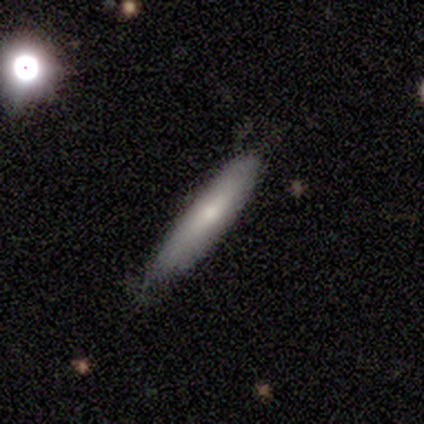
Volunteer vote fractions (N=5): smooth_or_featured: smooth (p=0.40) [tied with: star or artifact p=0.40]
how_rounded: cigar-shaped (p=1.00)
merging: none (p=1.00)